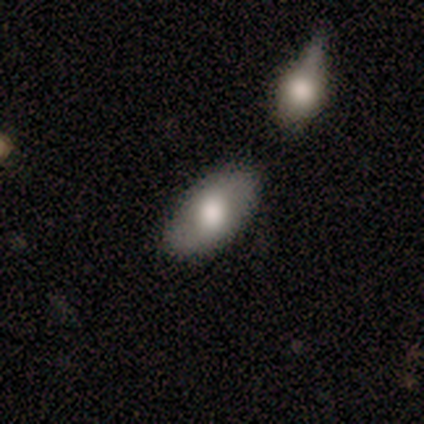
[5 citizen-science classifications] smooth_or_featured: smooth (p=1.00)
how_rounded: in between (p=1.00)
merging: none (p=0.80) [alt: minor disturbance p=0.20]